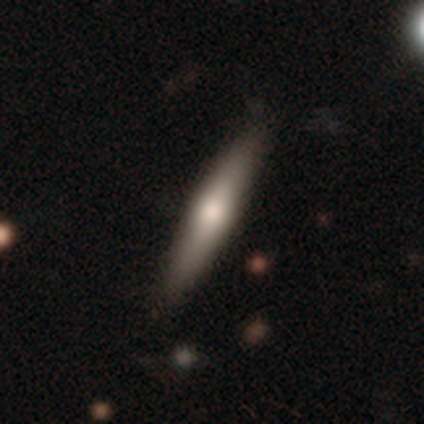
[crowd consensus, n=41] This is possibly a smooth galaxy (49%, tied with featured or disk). How rounded: clearly cigar-shaped (95%). Merging: clearly none (90%).